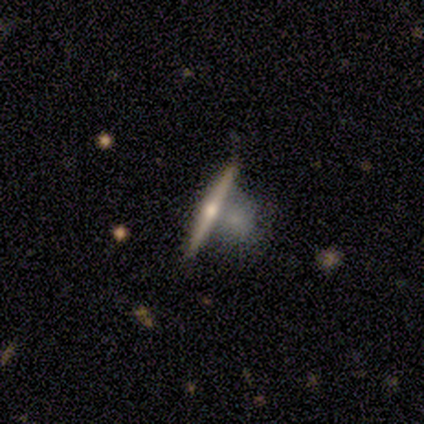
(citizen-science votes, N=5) Overall: featured or disk (100%). Edge-on disk: yes (100%). Edge-on bulge: rounded (100%). Merging: none (60%; merger 40%).